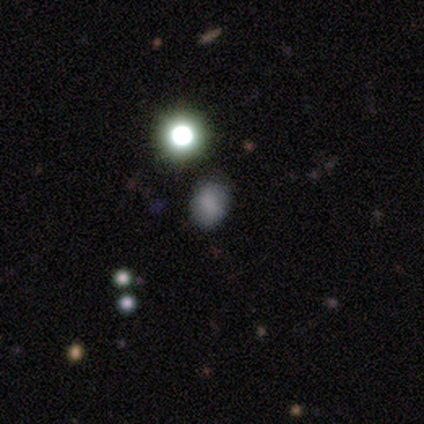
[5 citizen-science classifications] Morphology: type=smooth (40%, tied with star or artifact); roundness=in between (100%); merging=minor disturbance (67%).